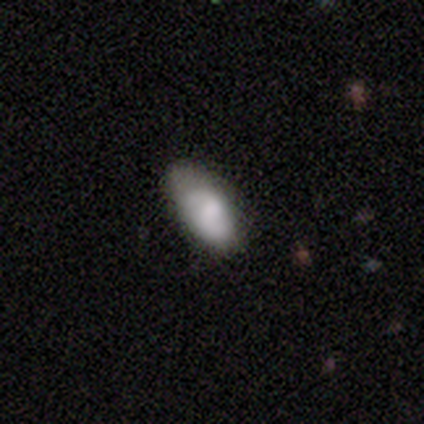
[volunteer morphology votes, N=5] Smooth or featured: smooth — 60% (featured or disk — 40%)
How rounded: in between — 100%
Merging: none — 60% (minor disturbance — 40%)